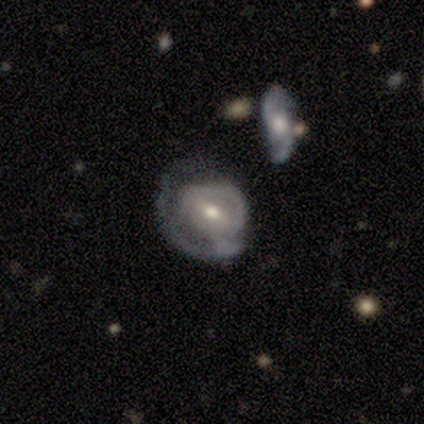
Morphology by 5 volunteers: Smooth or featured? featured or disk (60%)
Edge-on disk? no (100%)
Bar? strong (33%, tied with weak and no)
Spiral arms? yes (100%)
Spiral winding? tight (67%)
Spiral arm count? 1 (33%, tied with 2 and can't tell)
Bulge size? moderate (67%)
Merging? minor disturbance (60%)